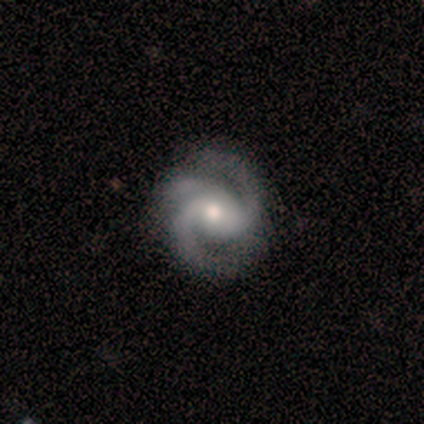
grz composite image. It shows a featured or disk galaxy (100%) with no bar (60%), 3 (80%) medium (60%) spiral arms (100%) and a small central bulge (60%). Merging: none (100%).